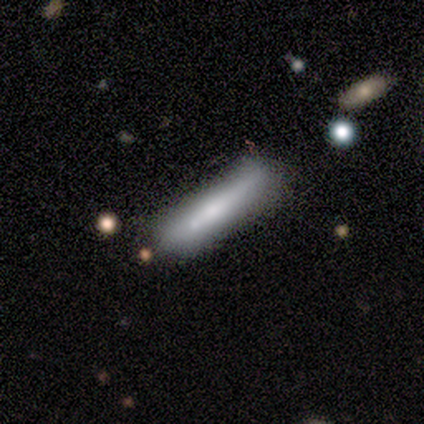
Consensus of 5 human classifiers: A smooth galaxy with no disk features (80%) that is cigar-shaped (100%). Merging: none (80%).